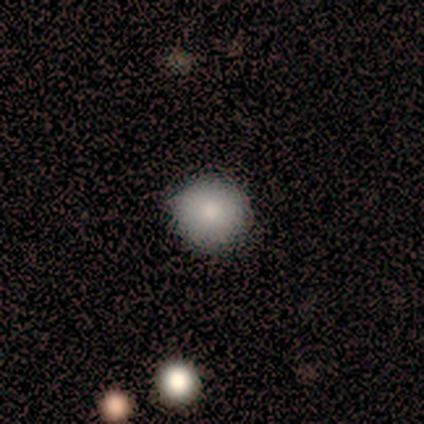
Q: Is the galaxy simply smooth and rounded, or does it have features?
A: smooth — 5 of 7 (71%).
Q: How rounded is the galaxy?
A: round — 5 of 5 (100%).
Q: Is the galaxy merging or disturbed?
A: none — 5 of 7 (71%).